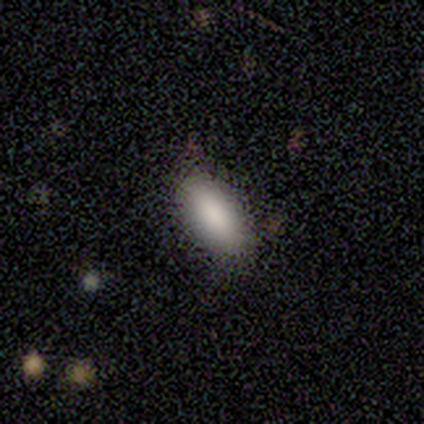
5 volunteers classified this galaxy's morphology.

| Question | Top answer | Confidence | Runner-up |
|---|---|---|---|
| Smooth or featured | smooth | 100% | — |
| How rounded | in between | 100% | — |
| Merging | none | 100% | — |